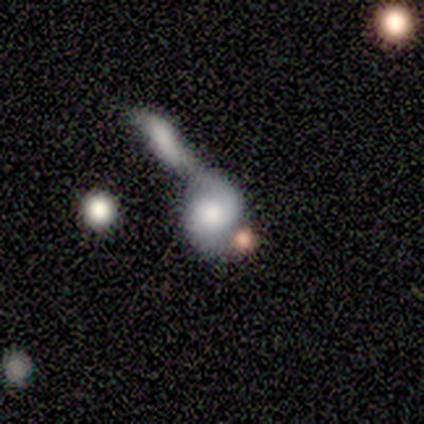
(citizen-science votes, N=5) Smooth or featured: smooth — 60% (featured or disk — 40%)
How rounded: in between — 67% (round — 33%)
Merging: merger — 60% (none — 20%)